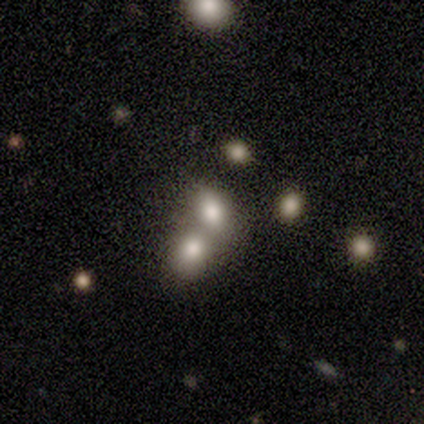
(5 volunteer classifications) Smooth or featured? 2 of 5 (40%, tied with featured or disk) said smooth. How rounded? 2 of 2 (100%) said round. Merging? 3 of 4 (75%) said merger.